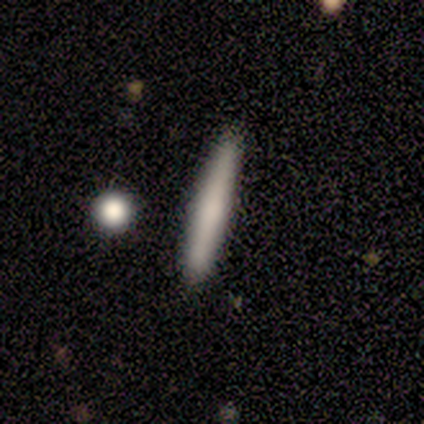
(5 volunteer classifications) Smooth or featured? 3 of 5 (60%) said smooth. How rounded? 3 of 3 (100%) said cigar-shaped. Merging? 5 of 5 (100%) said none.